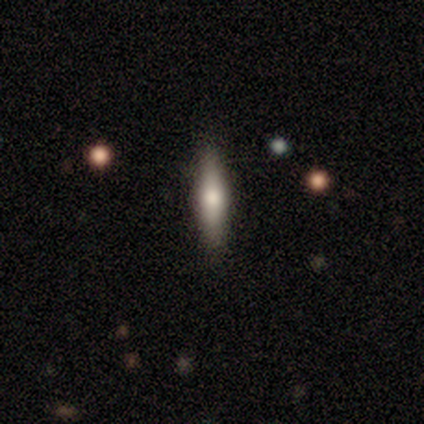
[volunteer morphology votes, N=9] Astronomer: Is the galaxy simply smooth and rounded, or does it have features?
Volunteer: smooth — 44% (runner-up: featured or disk, 33%).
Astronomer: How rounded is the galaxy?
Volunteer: cigar-shaped — 100%.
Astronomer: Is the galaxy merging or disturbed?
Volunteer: none — 86%.